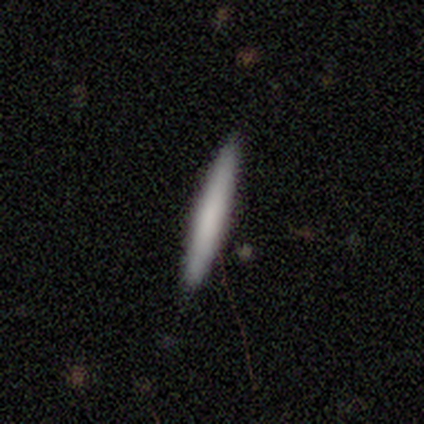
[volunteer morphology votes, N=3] smooth_or_featured: smooth (p=0.67) [alt: featured or disk p=0.33]
how_rounded: cigar-shaped (p=1.00)
merging: none (p=0.67) [alt: minor disturbance p=0.33]